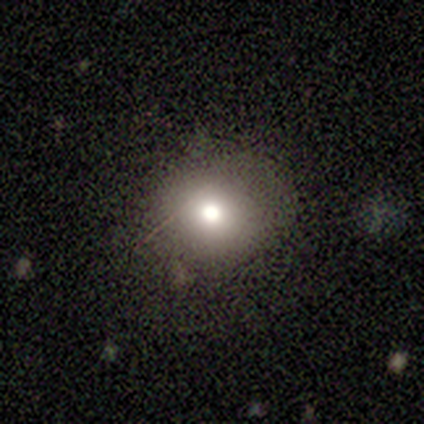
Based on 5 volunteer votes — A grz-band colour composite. It shows a star or artifact, not a galaxy (60%).